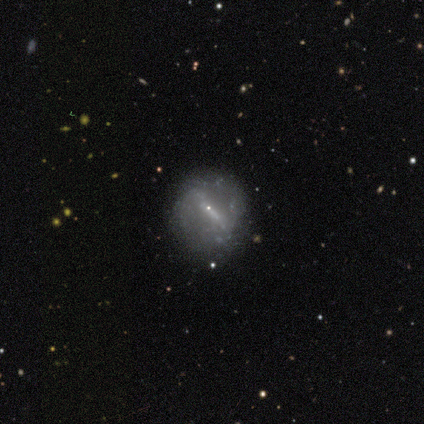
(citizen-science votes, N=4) smooth_or_featured: featured or disk (p=0.75) [alt: smooth p=0.25]
disk_edge_on: no (p=1.00)
bar: strong (p=0.67) [alt: weak p=0.33]
has_spiral_arms: no (p=1.00)
bulge_size: small (p=1.00)
merging: none (p=1.00)